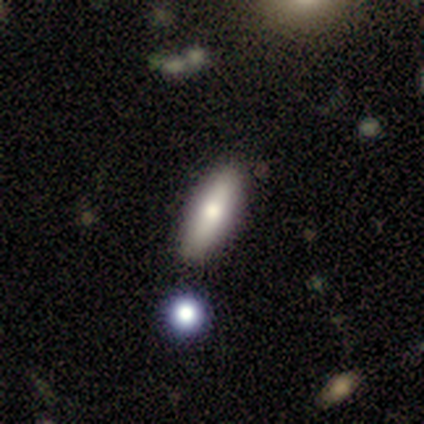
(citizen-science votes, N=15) smooth_or_featured: smooth (p=0.73) [alt: featured or disk p=0.13]
how_rounded: cigar-shaped (p=0.55) [alt: in between p=0.45]
merging: none (p=1.00)